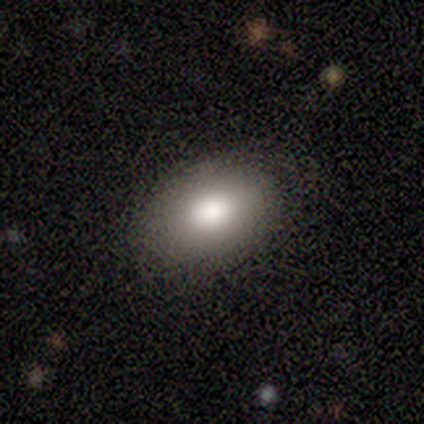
Morphology: type=smooth (100%); roundness=in between (100%); merging=none (100%).